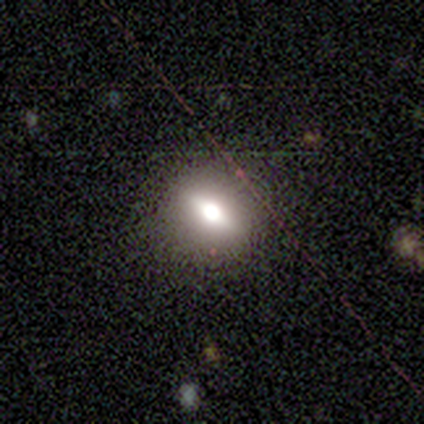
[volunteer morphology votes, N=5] smooth-or-featured: smooth: 80% | featured or disk: 20% | star or artifact: 0%
  how-rounded: round: 75% | in between: 25% | cigar-shaped: 0%
  merging: none: 100% | minor disturbance: 0% | major disturbance: 0% | merger: 0%